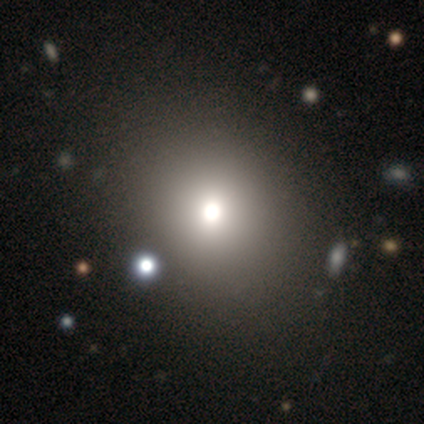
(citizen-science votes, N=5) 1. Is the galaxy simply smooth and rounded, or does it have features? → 80% smooth, 20% featured or disk, 0% star or artifact.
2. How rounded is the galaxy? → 75% round, 25% in between, 0% cigar-shaped.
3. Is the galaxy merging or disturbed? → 80% none, 20% merger, 0% minor disturbance, 0% major disturbance.